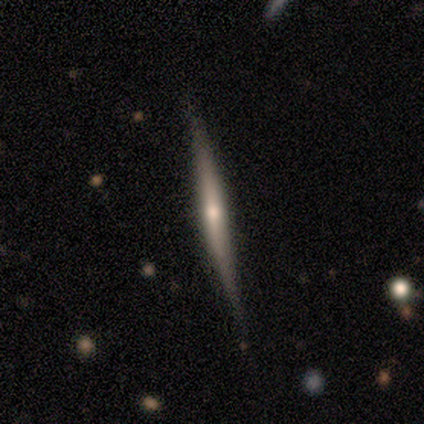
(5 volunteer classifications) Q: Smooth or featured?
A: featured or disk (80%); runner-up: smooth (20%)
Q: Edge-on disk?
A: yes (100%)
Q: Edge-on bulge?
A: rounded (75%); runner-up: none (25%)
Q: Merging?
A: none (60%); runner-up: minor disturbance (40%)